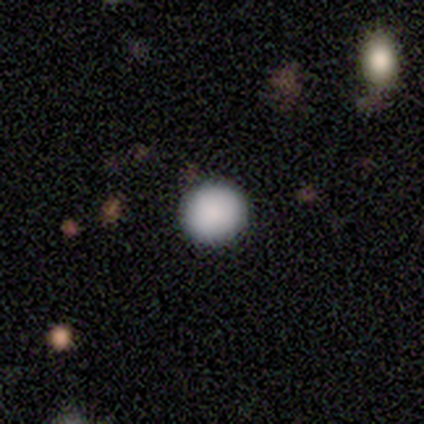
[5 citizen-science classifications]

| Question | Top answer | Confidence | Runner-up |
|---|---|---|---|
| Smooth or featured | smooth | 80% | star or artifact (20%) |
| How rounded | round | 100% | — |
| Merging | none | 100% | — |